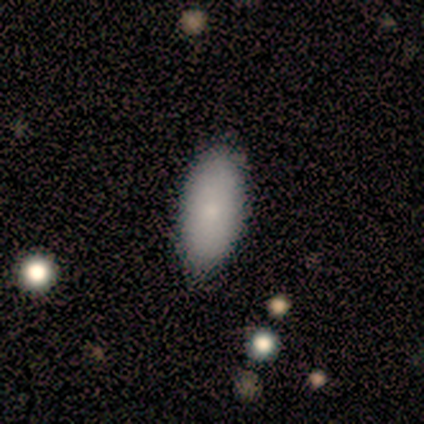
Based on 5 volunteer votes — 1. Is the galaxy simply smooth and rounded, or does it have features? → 80% smooth, 20% featured or disk, 0% star or artifact.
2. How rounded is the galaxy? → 100% in between, 0% round, 0% cigar-shaped.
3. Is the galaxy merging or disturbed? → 80% none, 20% minor disturbance, 0% major disturbance, 0% merger.